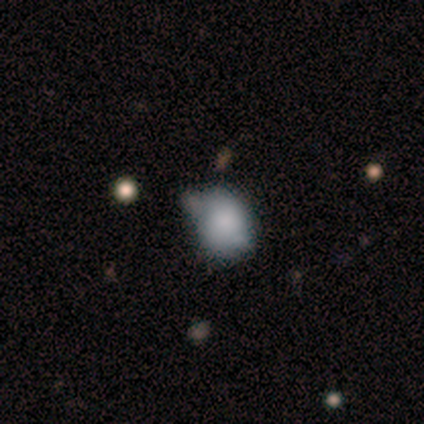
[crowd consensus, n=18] Volunteers were most divided on "how rounded": round: 58%, in between: 42%, cigar-shaped: 0%. More confident: smooth or featured — smooth (67%); merging — none (53%).